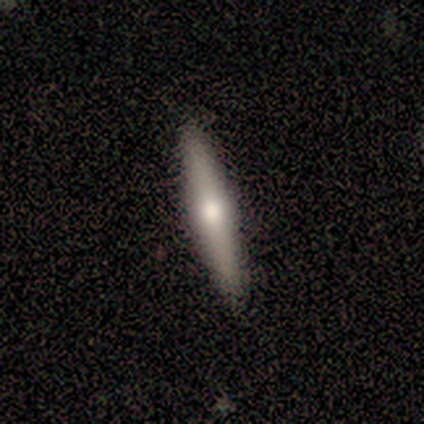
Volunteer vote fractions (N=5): Volunteers were most divided on "smooth or featured": smooth: 60%, featured or disk: 20%, star or artifact: 20%. More confident: how rounded — cigar-shaped (100%); merging — none (75%).